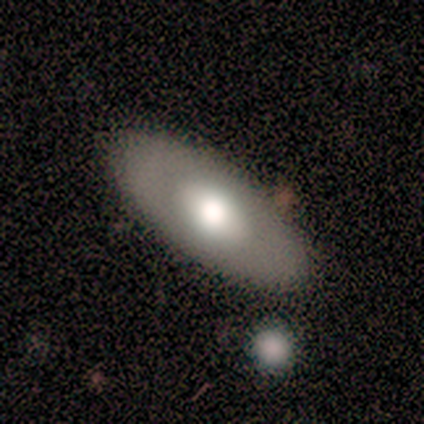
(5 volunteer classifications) smooth-or-featured: smooth: 60% | featured or disk: 40% | star or artifact: 0%
  how-rounded: in between: 100% | round: 0% | cigar-shaped: 0%
  merging: none: 80% | minor disturbance: 20% | major disturbance: 0% | merger: 0%